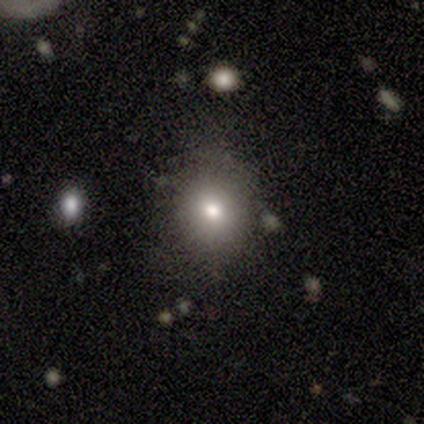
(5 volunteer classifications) Q: Smooth or featured?
A: smooth (80%); runner-up: star or artifact (20%)
Q: How rounded?
A: round (50%); tied with: in between (50%)
Q: Merging?
A: none (100%)